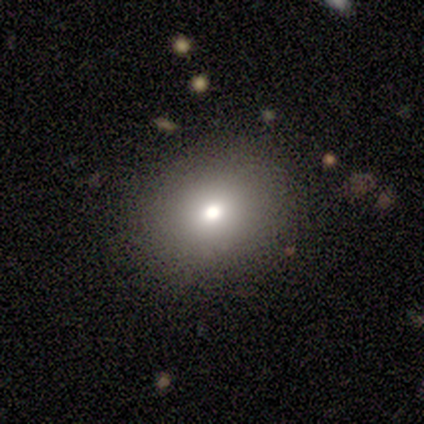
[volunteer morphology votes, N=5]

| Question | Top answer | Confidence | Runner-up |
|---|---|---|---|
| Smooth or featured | smooth | 60% | featured or disk (20%) |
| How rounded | in between | 100% | — |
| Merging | none | 75% | minor disturbance (25%) |